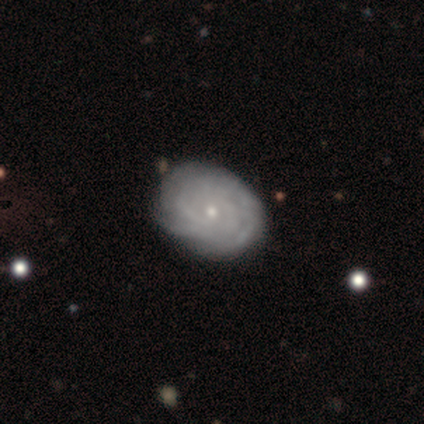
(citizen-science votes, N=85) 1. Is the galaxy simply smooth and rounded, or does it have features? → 75% featured or disk, 20% smooth, 5% star or artifact.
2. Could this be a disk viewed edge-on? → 98% no, 2% yes.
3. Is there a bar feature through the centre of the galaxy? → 86% no, 14% weak, 0% strong.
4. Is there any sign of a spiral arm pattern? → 90% yes, 10% no.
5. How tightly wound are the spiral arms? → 81% tight, 14% medium, 5% loose.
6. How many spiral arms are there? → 61% can't tell, 12% 2, 11% 4, 9% 3, 7% more than 4, 0% 1.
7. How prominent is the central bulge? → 81% small, 14% moderate, 3% none, 2% dominant, 0% large.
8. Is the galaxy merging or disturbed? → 91% none, 7% minor disturbance, 1% major disturbance, 0% merger.